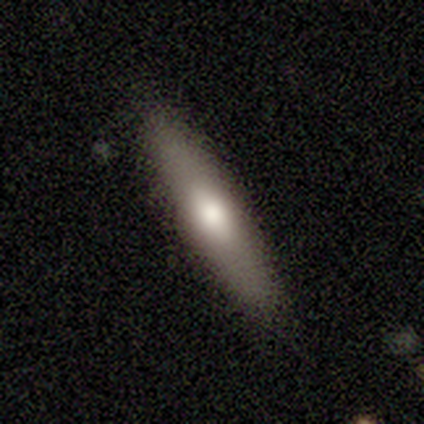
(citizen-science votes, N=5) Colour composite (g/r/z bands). It shows a featured or disk galaxy (60%) viewed edge-on (67%) with a boxy central bulge (50%, tied with rounded). Merging: none (80%).